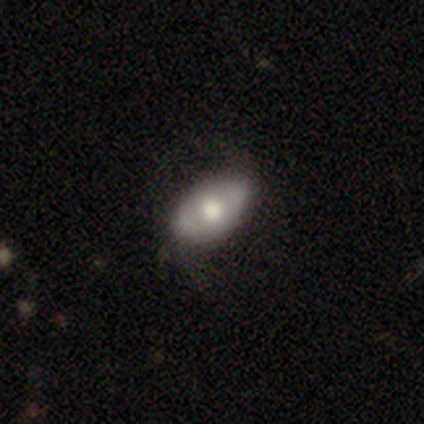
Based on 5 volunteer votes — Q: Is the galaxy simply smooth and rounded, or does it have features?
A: smooth — 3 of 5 (60%).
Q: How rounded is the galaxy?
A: in between — 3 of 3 (100%).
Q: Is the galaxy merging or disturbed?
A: none — 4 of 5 (80%).